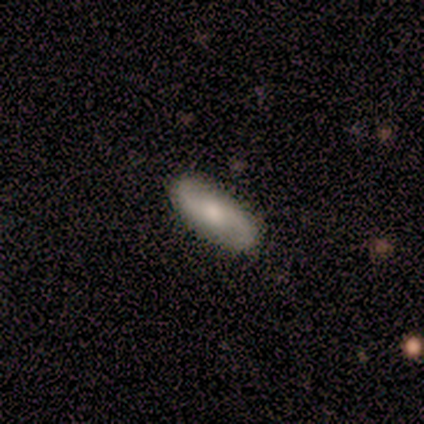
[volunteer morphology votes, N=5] type=featured or disk (60%); edge-on=no (100%); bar=no (67%); spiral arms=yes (100%); winding=loose (67%); arm count=2 (100%); bulge=moderate (67%); merging=none (100%).